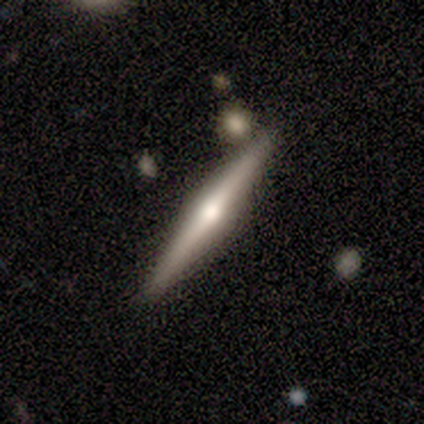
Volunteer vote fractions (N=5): Smooth or featured? featured or disk (80%)
Edge-on disk? yes (100%)
Edge-on bulge? rounded (75%)
Merging? none (80%)